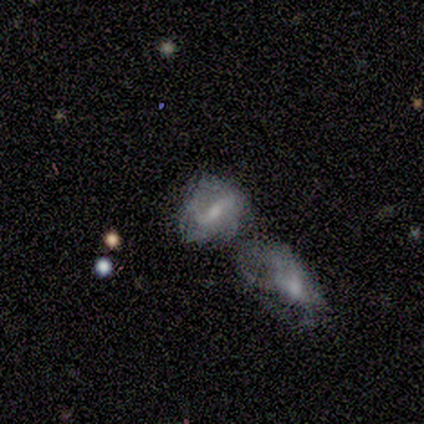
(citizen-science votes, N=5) Smooth or featured? 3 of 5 (60%) said featured or disk. Edge-on disk? 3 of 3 (100%) said no. Bar? 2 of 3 (67%) said no. Spiral arms? 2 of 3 (67%) said yes. Spiral winding? 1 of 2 (50%, tied with loose) said tight. Spiral arm count? 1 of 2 (50%, tied with can't tell) said 2. Bulge size? 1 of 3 (33%, tied with moderate and none) said large. Merging? 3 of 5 (60%) said merger.